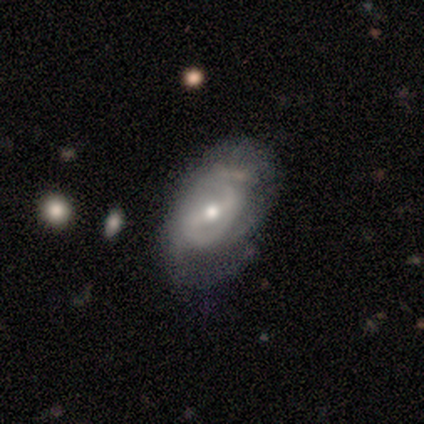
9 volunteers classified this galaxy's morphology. Q: Smooth or featured?
A: featured or disk (89%); runner-up: smooth (11%)
Q: Edge-on disk?
A: no (88%); runner-up: yes (12%)
Q: Bar?
A: strong (43%); tied with: weak (43%)
Q: Spiral arms?
A: yes (100%)
Q: Spiral winding?
A: medium (57%); runner-up: tight (29%)
Q: Spiral arm count?
A: 2 (86%); runner-up: can't tell (14%)
Q: Bulge size?
A: moderate (71%); runner-up: small (29%)
Q: Merging?
A: minor disturbance (67%); runner-up: none (33%)